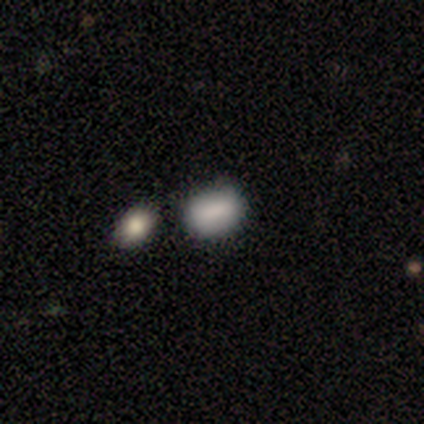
A smooth galaxy with no disk features (85%) that is in between round and cigar-shaped (74%).

Vote fractions:
- Smooth or featured? smooth: 85% / star or artifact: 12% / featured or disk: 2%
- How rounded? in between: 74% / round: 26% / cigar-shaped: 0%
- Merging? none: 77% / minor disturbance: 20% / merger: 3% / major disturbance: 0%